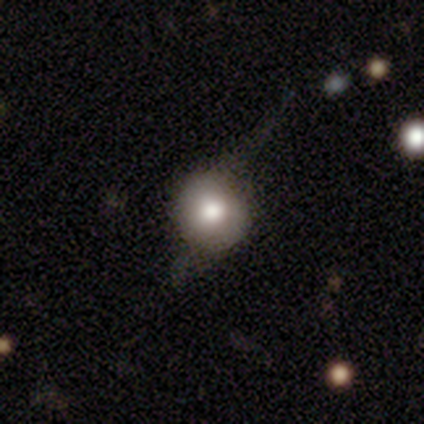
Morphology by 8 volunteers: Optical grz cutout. It shows a smooth galaxy with no disk features (50%, tied with featured or disk) that is round (100%). Merging: none (75%).